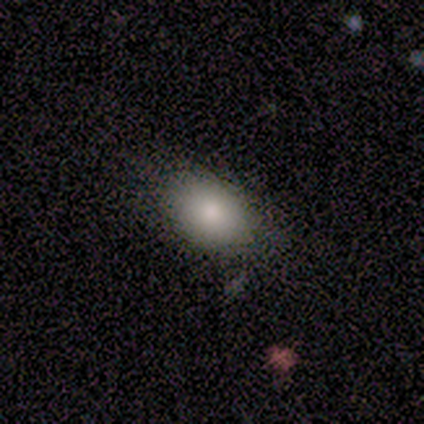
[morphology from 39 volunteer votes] Smooth or featured? 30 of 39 (77%) said smooth. How rounded? 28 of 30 (93%) said in between. Merging? 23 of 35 (66%) said none.